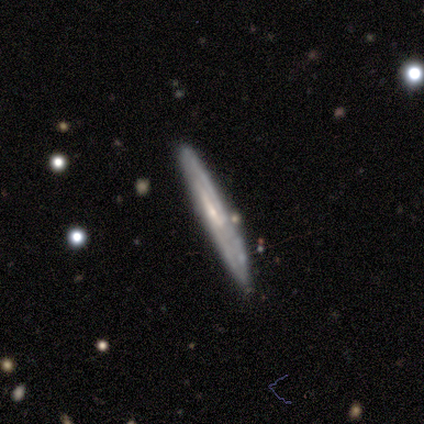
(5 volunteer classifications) Smooth or featured: featured or disk — 100%
Edge-on disk: yes — 60% (no — 40%)
Edge-on bulge: none — 100%
Merging: none — 100%